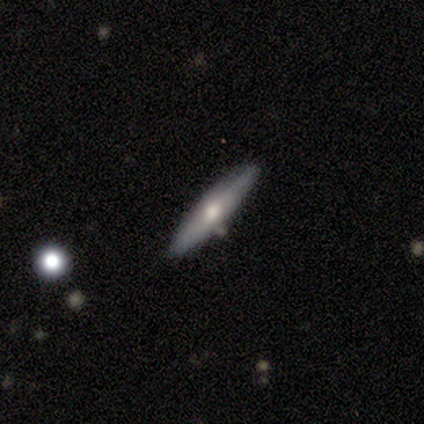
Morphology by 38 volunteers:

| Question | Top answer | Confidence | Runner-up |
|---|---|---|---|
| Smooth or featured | smooth | 55% | featured or disk (39%) |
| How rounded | cigar-shaped | 81% | in between (19%) |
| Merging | none | 94% | minor disturbance (3%) |